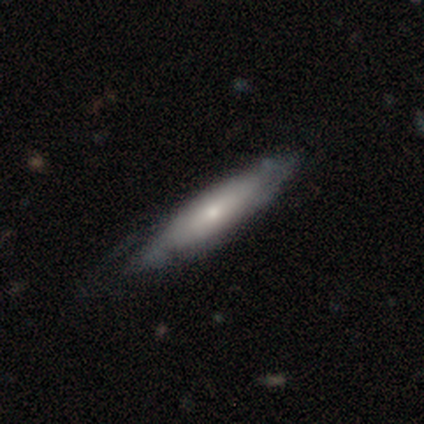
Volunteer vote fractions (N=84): featured or disk 52%, smooth 40%, star or artifact 7%. Down the decision tree: edge-on disk — yes (64%); edge-on bulge — rounded (75%); merging — none (64%).